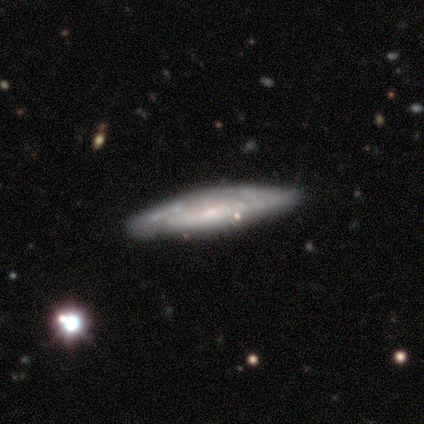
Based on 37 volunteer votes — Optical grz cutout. It shows a featured or disk galaxy (59%) viewed edge-on (59%) with no central bulge (46%). Merging: none (58%).